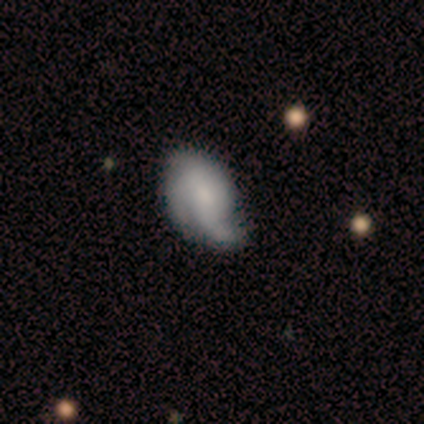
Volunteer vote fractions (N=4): Smooth or featured? 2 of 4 (50%) said featured or disk. Edge-on disk? 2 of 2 (100%) said no. Bar? 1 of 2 (50%, tied with no) said weak. Spiral arms? 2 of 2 (100%) said yes. Spiral winding? 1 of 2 (50%, tied with loose) said tight. Spiral arm count? 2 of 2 (100%) said 3. Bulge size? 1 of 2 (50%, tied with none) said moderate. Merging? 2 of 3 (67%) said none.